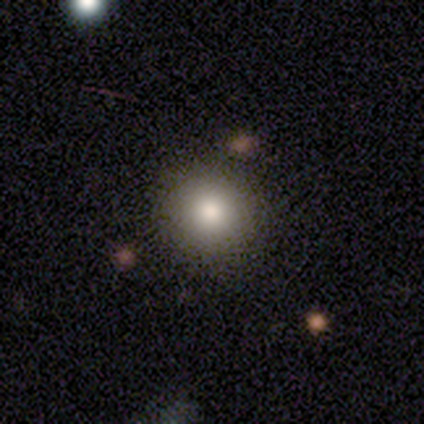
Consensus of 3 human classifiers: Smooth or featured: smooth — 100%
How rounded: round — 100%
Merging: none — 100%